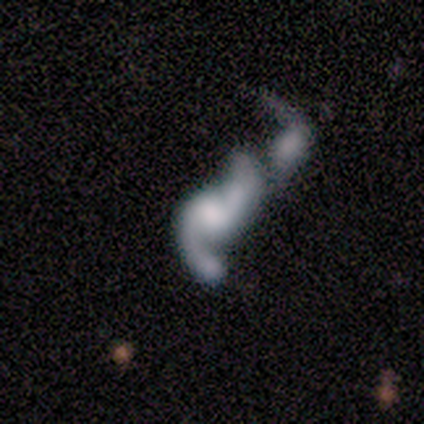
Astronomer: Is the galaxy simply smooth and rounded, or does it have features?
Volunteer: featured or disk — 80%.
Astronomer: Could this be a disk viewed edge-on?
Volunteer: no — 100%.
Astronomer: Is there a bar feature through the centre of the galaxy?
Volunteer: no — 75%.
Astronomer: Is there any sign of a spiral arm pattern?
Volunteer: yes — 75%.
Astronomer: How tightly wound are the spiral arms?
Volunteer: loose — 67%.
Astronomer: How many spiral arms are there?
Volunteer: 2 — 100%.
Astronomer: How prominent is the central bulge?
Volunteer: small — 50%, tied with none at 50%.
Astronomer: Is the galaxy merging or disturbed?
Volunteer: merger — 50%.